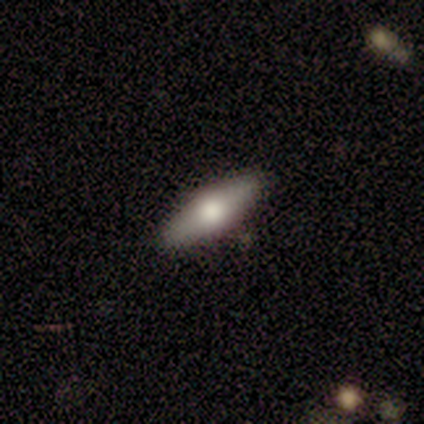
This appears to be a smooth galaxy with no disk features (60%) that is in between round and cigar-shaped (67%). Merging: none (80%).